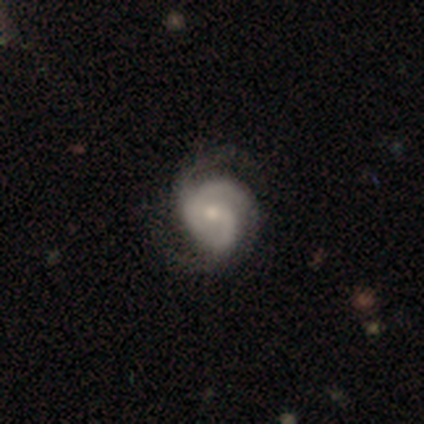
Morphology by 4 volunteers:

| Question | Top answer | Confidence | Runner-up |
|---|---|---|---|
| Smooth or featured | featured or disk | 75% | star or artifact (25%) |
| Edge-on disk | no | 100% | — |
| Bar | strong | 33% | tied: weak (33%), no (33%) |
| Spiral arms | yes | 100% | — |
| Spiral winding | loose | 67% | tight (33%) |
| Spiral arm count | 2 | 67% | 3 (33%) |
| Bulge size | moderate | 67% | small (33%) |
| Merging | none | 67% | major disturbance (33%) |